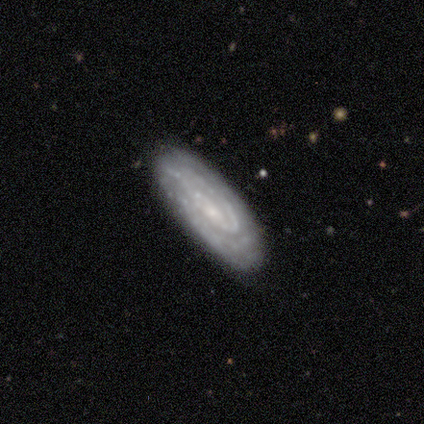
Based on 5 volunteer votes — This is clearly a featured or disk galaxy (100%). It is clearly not viewed edge-on (100%). Bar: likely no (60%). Spiral arm pattern: clearly yes (100%). Spiral arm count: marginally 2 (40%, tied with can't tell). Spiral winding: likely tight (60%). Central bulge: clearly small (100%). Merging: clearly none (100%).